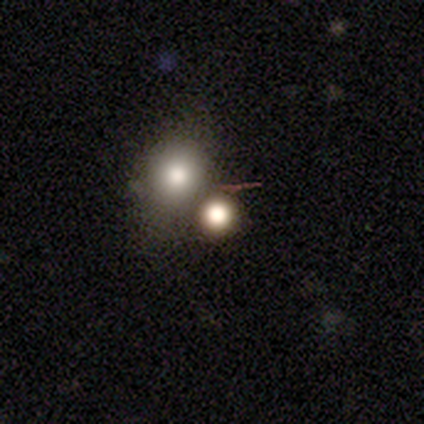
This is likely a smooth galaxy (75%). How rounded: clearly round (87%). Merging: possibly none (54%).